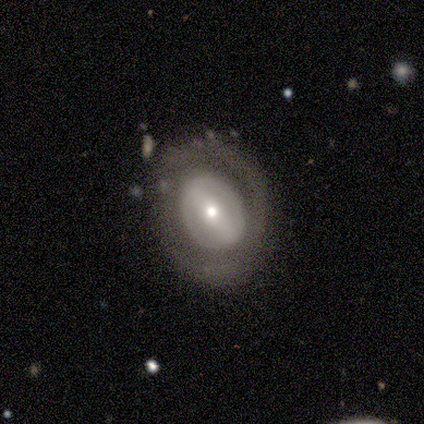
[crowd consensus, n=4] smooth-or-featured: smooth: 50% | featured or disk: 25% | star or artifact: 25%
  how-rounded: round: 50% (tied) | in between: 50% (tied) | cigar-shaped: 0%
  merging: none: 100% | minor disturbance: 0% | major disturbance: 0% | merger: 0%